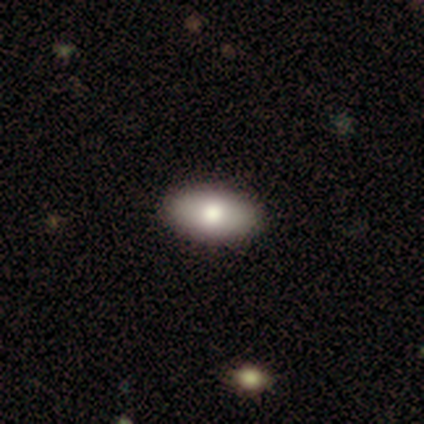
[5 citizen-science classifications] smooth 100%, featured or disk 0%, star or artifact 0%. Down the decision tree: how rounded — in between (100%); merging — none (100%).